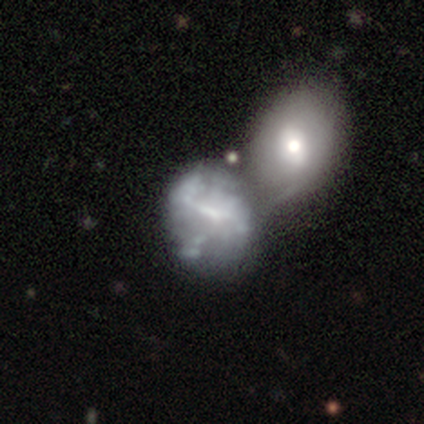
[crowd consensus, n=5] Smooth or featured? featured or disk (60%)
Edge-on disk? no (100%)
Bar? no (67%)
Spiral arms? no (100%)
Bulge size? small (67%)
Merging? merger (40%)